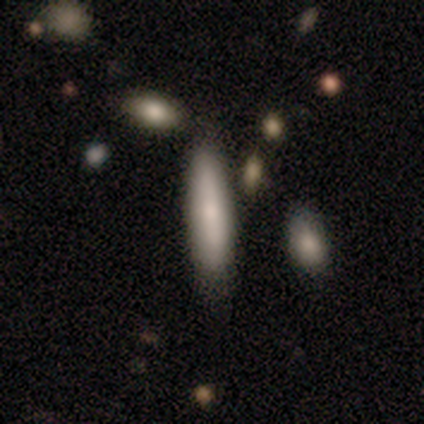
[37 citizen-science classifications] smooth_or_featured: smooth (p=0.73) [alt: featured or disk p=0.22]
how_rounded: cigar-shaped (p=0.74) [alt: in between p=0.22]
merging: none (p=0.77) [alt: minor disturbance p=0.14]